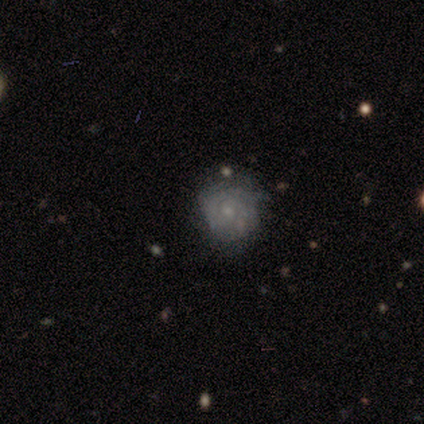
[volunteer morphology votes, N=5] Overall: featured or disk (60%; smooth 40%). Edge-on disk: no (100%). Bar: no (100%). Spiral arms: no (67%; yes 33%). Bulge size: small (100%). Merging: none (60%; minor disturbance 20%).